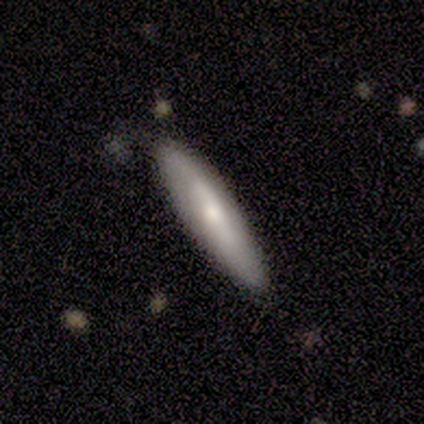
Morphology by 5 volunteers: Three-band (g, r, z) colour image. It shows a smooth galaxy with no disk features (60%) that is cigar-shaped (100%). Merging: none (75%).